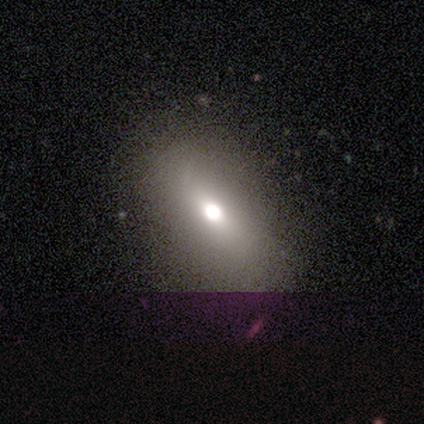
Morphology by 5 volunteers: This is marginally a featured or disk galaxy (40%, tied with star or artifact). It is possibly viewed edge-on (50%, tied with no). Edge-on bulge: clearly rounded (100%). Merging: likely none (67%).